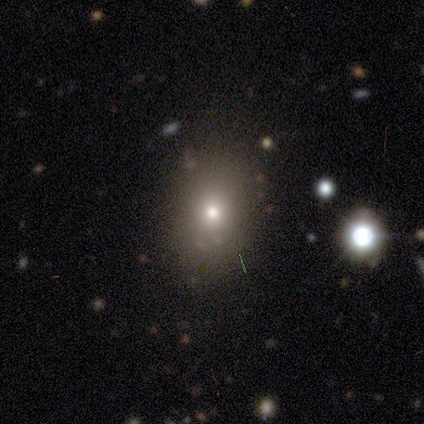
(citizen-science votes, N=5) Q: Smooth or featured?
A: smooth (80%); runner-up: star or artifact (20%)
Q: How rounded?
A: in between (100%)
Q: Merging?
A: none (75%); runner-up: minor disturbance (25%)